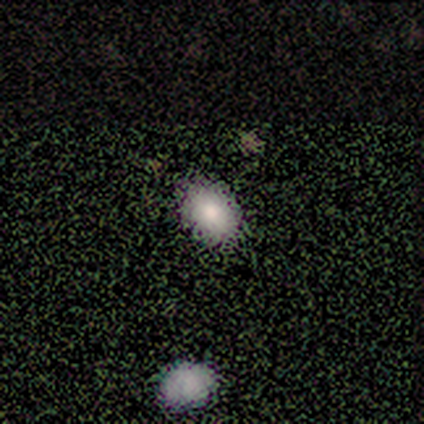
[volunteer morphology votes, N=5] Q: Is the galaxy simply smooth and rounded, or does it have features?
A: smooth — 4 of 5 (80%).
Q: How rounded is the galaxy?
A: in between — 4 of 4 (100%).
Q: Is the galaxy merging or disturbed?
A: minor disturbance — 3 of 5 (60%).